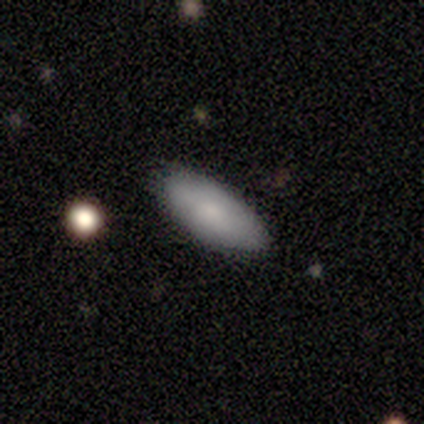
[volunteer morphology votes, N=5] type=smooth (80%); roundness=in between (100%); merging=none (100%).